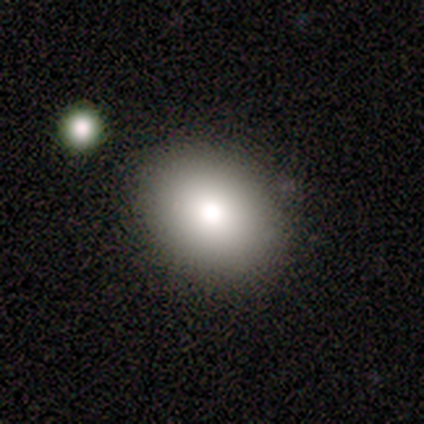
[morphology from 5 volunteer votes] Q: Smooth or featured?
A: smooth (80%); runner-up: featured or disk (20%)
Q: How rounded?
A: in between (75%); runner-up: round (25%)
Q: Merging?
A: none (80%); runner-up: merger (20%)